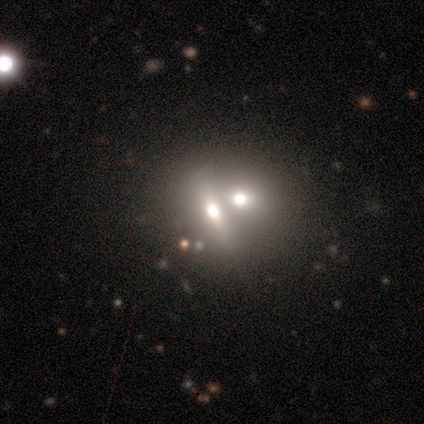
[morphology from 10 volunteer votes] Smooth or featured?
  - smooth: 70% *
  - star or artifact: 20%
  - featured or disk: 10%
How rounded?
  - in between: 43% *
  - round: 29%
  - cigar-shaped: 29%
Merging?
  - merger: 75% *
  - none: 25%
  - minor disturbance: 0%
  - major disturbance: 0%